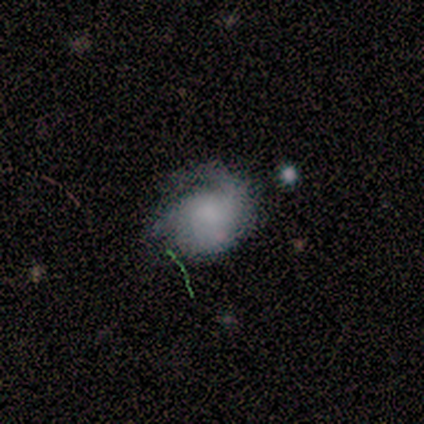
Smooth or featured? smooth (40%, tied with featured or disk)
How rounded? round (100%)
Merging? none (50%, tied with major disturbance)